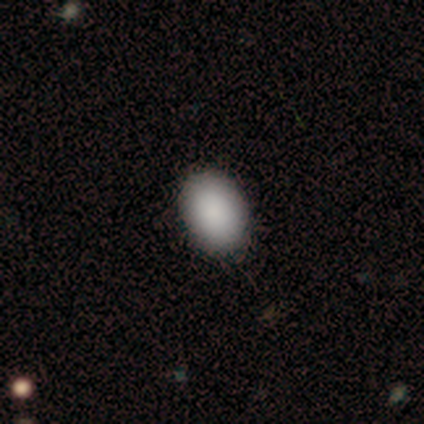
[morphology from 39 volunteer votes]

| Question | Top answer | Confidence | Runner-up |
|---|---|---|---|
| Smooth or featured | smooth | 95% | featured or disk (3%) |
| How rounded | in between | 92% | round (8%) |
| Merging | none | 66% | minor disturbance (5%) |